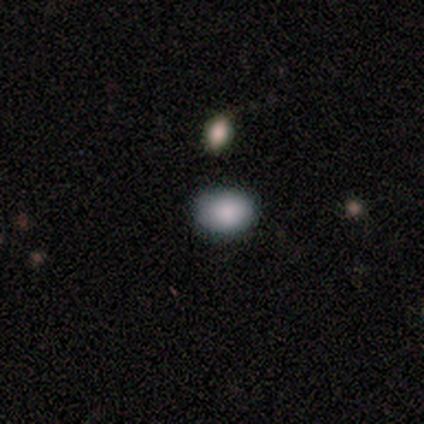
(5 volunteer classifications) A smooth galaxy with no disk features (100%) that is in between round and cigar-shaped (60%).

Vote fractions:
- Smooth or featured? smooth: 100% / featured or disk: 0% / star or artifact: 0%
- How rounded? in between: 60% / round: 40% / cigar-shaped: 0%
- Merging? none: 60% / minor disturbance: 40% / major disturbance: 0% / merger: 0%